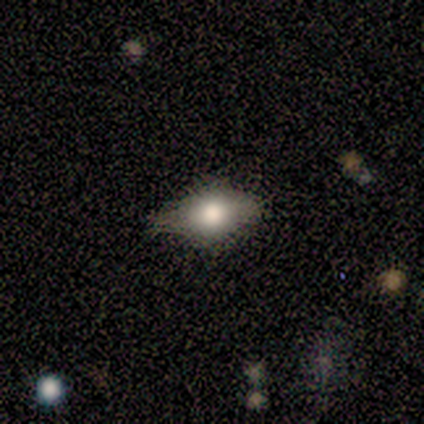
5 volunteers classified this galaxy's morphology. Smooth or featured? smooth (60%)
How rounded? in between (67%)
Merging? none (75%)